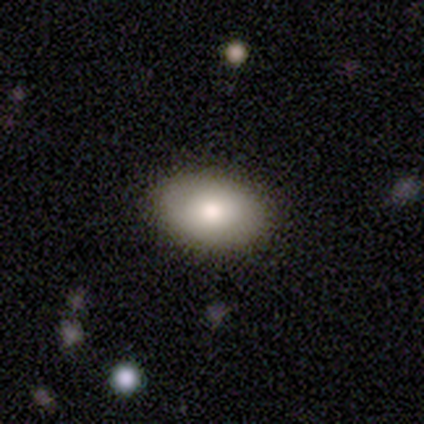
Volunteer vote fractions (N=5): A smooth galaxy with no disk features (80%) that is in between round and cigar-shaped (100%).

Vote fractions:
- Smooth or featured? smooth: 80% / featured or disk: 20% / star or artifact: 0%
- How rounded? in between: 100% / round: 0% / cigar-shaped: 0%
- Merging? none: 100% / minor disturbance: 0% / major disturbance: 0% / merger: 0%